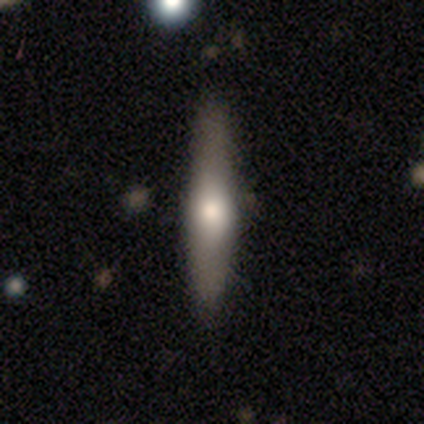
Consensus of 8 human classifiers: Morphology: type=smooth (75%); roundness=cigar-shaped (83%); merging=none (88%).